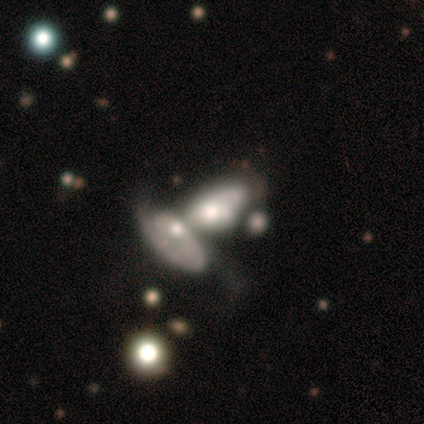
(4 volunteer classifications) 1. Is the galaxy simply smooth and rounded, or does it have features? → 50% smooth, 25% featured or disk, 25% star or artifact.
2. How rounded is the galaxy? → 100% in between, 0% round, 0% cigar-shaped.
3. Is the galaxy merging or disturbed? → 100% merger, 0% none, 0% minor disturbance, 0% major disturbance.